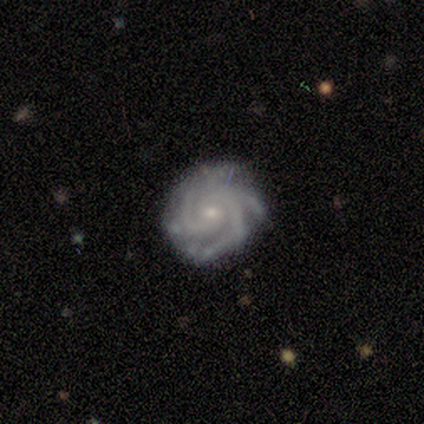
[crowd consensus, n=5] Q: Smooth or featured?
A: featured or disk (100%)
Q: Edge-on disk?
A: no (100%)
Q: Bar?
A: weak (60%); runner-up: no (40%)
Q: Spiral arms?
A: yes (100%)
Q: Spiral winding?
A: tight (80%); runner-up: medium (20%)
Q: Spiral arm count?
A: 3 (60%); runner-up: 4 (40%)
Q: Bulge size?
A: small (80%); runner-up: moderate (20%)
Q: Merging?
A: none (80%); runner-up: minor disturbance (20%)